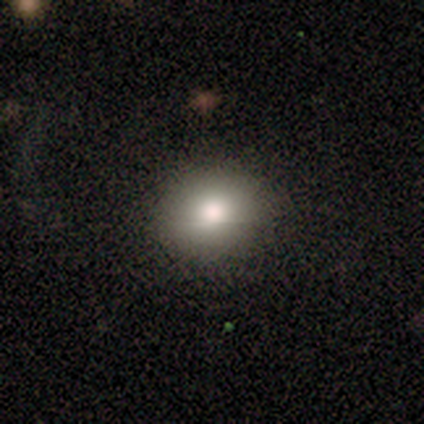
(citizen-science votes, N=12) Q: Smooth or featured?
A: smooth (83%); runner-up: featured or disk (17%)
Q: How rounded?
A: round (70%); runner-up: in between (30%)
Q: Merging?
A: none (100%)